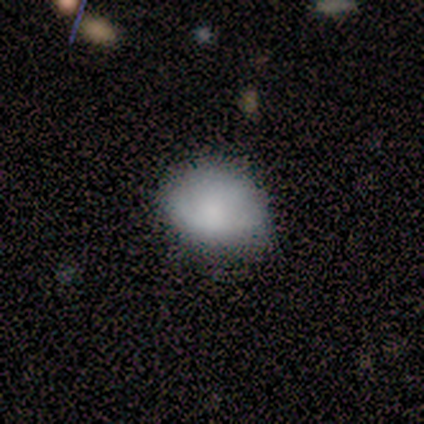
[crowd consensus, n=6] This is likely a smooth galaxy (67%). How rounded: possibly round (50%, tied with in between). Merging: likely none (60%).